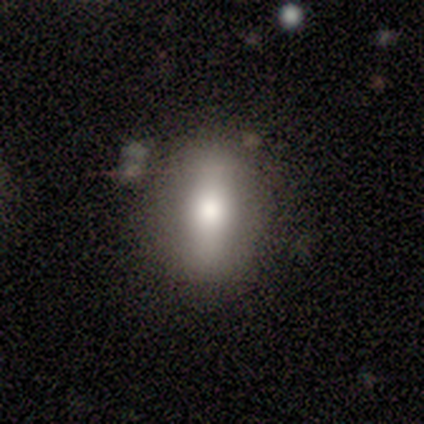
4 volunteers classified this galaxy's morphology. A smooth galaxy with no disk features (100%) that is in between round and cigar-shaped (75%). Merging: none (100%).